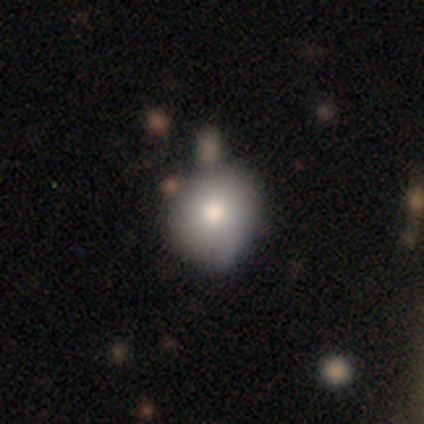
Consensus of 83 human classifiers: A smooth galaxy with no disk features (84%) that is round (84%). Merging: none (72%).